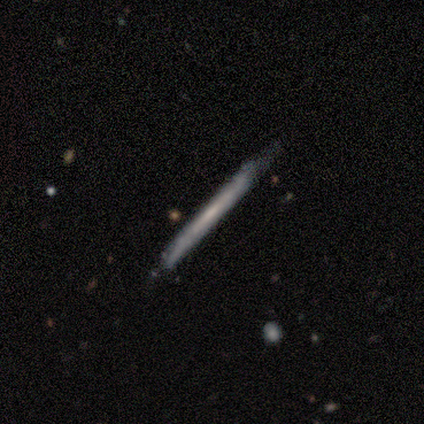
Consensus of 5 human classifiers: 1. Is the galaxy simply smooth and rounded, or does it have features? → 60% featured or disk, 20% smooth, 20% star or artifact.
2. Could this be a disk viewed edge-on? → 100% yes, 0% no.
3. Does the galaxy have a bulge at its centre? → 100% none, 0% boxy, 0% rounded.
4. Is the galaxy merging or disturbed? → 100% none, 0% minor disturbance, 0% major disturbance, 0% merger.